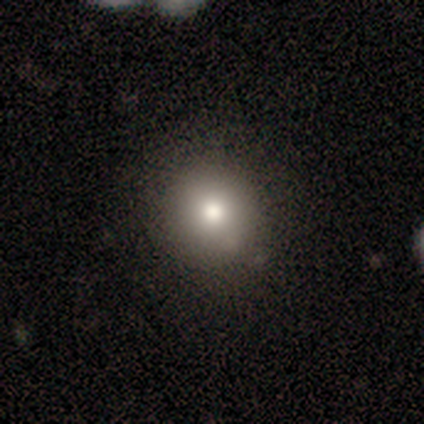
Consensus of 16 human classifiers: smooth 81%, star or artifact 19%, featured or disk 0%. Down the decision tree: how rounded — round (92%); merging — none (100%).